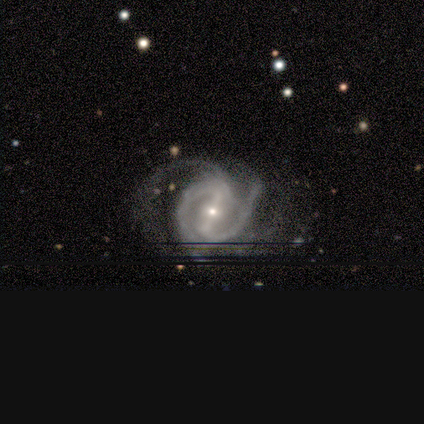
This is likely a featured or disk galaxy (67%). It is clearly not viewed edge-on (100%). Bar: possibly strong (50%, tied with weak). Spiral arm pattern: clearly yes (100%). Spiral arm count: possibly 2 (50%, tied with can't tell). Spiral winding: possibly medium (50%, tied with loose). Central bulge: clearly small (100%). Merging: likely none (67%).